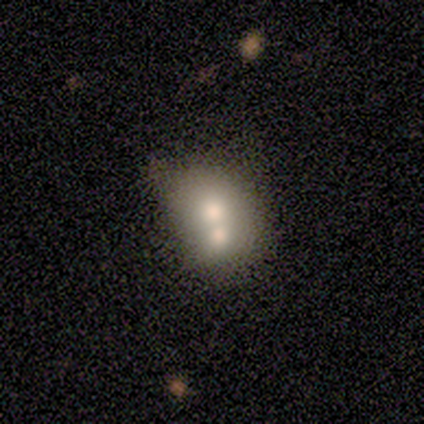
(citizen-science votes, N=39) Overall: smooth (64%; featured or disk 26%). How rounded: round (56%; in between 44%). Merging: merger (86%).